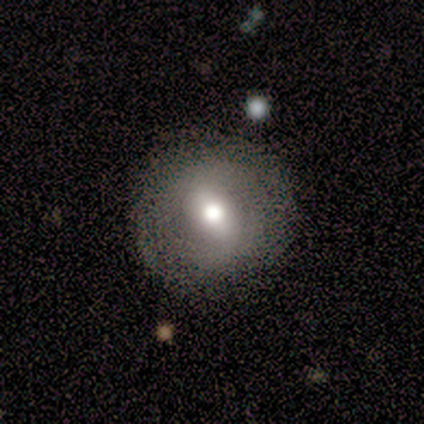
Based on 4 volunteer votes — Smooth or featured?
  - featured or disk: 75% *
  - smooth: 25%
  - star or artifact: 0%
Edge-on disk?
  - no: 100% *
  - yes: 0%
Bar?
  - weak: 67% *
  - strong: 33%
  - no: 0%
Spiral arms?
  - yes: 67% *
  - no: 33%
Spiral winding?
  - tight: 50% * (tied)
  - loose: 50% * (tied)
  - medium: 0%
Spiral arm count?
  - 2: 100% *
  - 1: 0%
  - 3: 0%
  - 4: 0%
  - more than 4: 0%
  - can't tell: 0%
Bulge size?
  - moderate: 67% *
  - small: 33%
  - dominant: 0%
  - large: 0%
  - none: 0%
Merging?
  - none: 100% *
  - minor disturbance: 0%
  - major disturbance: 0%
  - merger: 0%